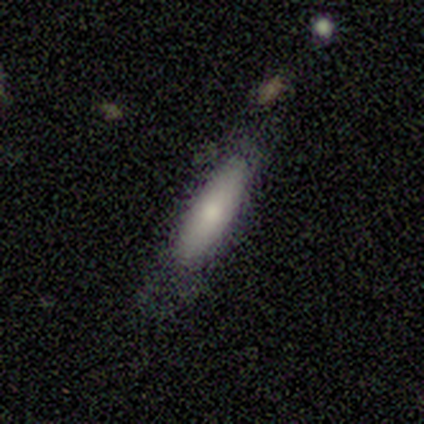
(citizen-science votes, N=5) Morphology: type=smooth (80%); roundness=in between (50%, tied with cigar-shaped); merging=minor disturbance (60%).